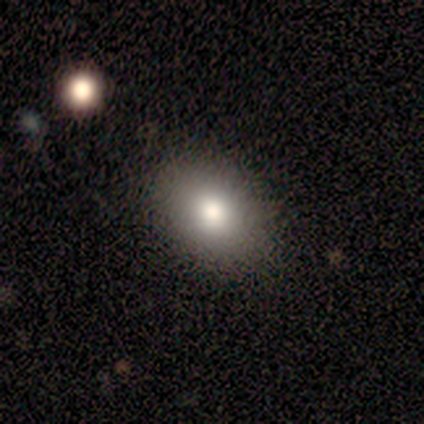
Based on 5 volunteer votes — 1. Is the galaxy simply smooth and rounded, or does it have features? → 80% smooth, 20% featured or disk, 0% star or artifact.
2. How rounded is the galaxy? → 75% in between, 25% round, 0% cigar-shaped.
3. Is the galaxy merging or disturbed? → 60% minor disturbance, 40% none, 0% major disturbance, 0% merger.